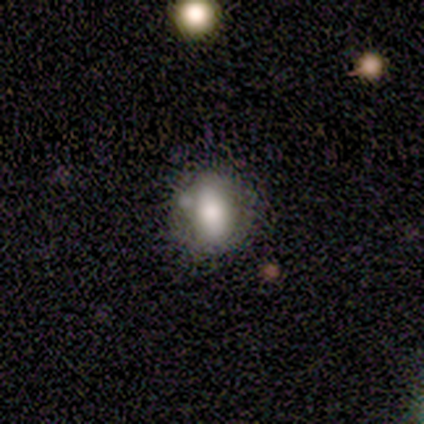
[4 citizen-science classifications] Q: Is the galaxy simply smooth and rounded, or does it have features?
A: smooth — 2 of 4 (50%, tied with featured or disk).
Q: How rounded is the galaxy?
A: in between — 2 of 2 (100%).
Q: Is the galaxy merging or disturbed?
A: minor disturbance — 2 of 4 (50%).